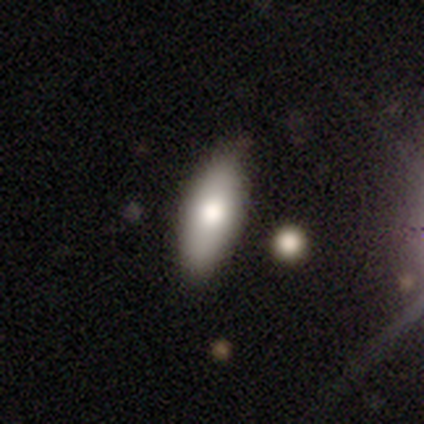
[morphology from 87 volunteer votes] This is likely a smooth galaxy (74%). How rounded: likely in between (69%). Merging: clearly none (84%).